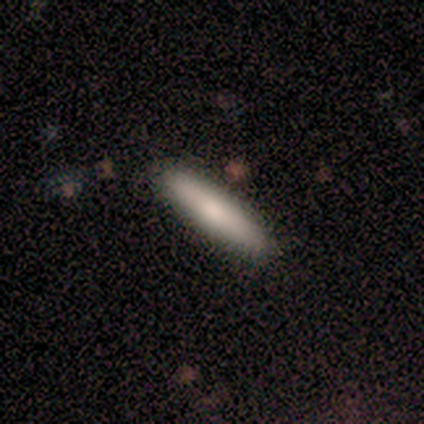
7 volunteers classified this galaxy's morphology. Smooth or featured: smooth — 71% (featured or disk — 14%)
How rounded: cigar-shaped — 80% (in between — 20%)
Merging: none — 83% (minor disturbance — 17%)